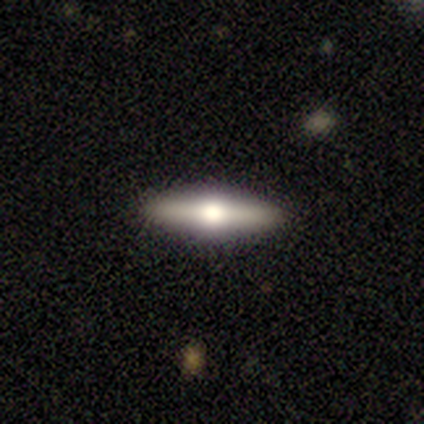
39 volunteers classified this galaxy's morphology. Overall: featured or disk (67%). Edge-on disk: yes (96%). Edge-on bulge: rounded (96%). Merging: none (97%).